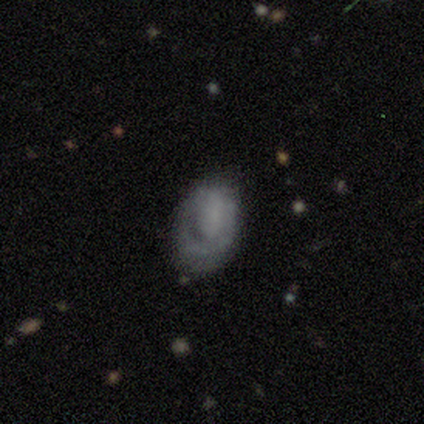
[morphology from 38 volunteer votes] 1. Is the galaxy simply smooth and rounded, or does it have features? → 42% smooth (tied), 42% featured or disk (tied), 16% star or artifact.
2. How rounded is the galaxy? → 88% in between, 12% round, 0% cigar-shaped.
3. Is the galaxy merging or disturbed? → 47% minor disturbance, 41% none, 12% major disturbance, 0% merger.